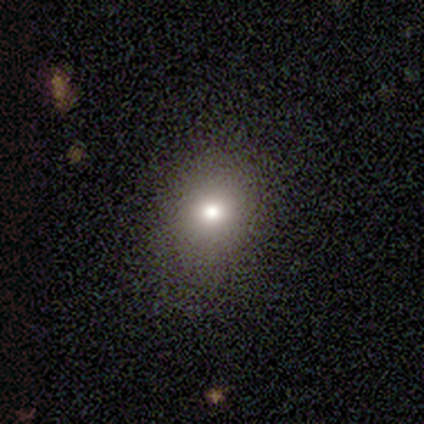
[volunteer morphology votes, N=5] Smooth or featured? 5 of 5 (100%) said smooth. How rounded? 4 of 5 (80%) said round. Merging? 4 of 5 (80%) said none.